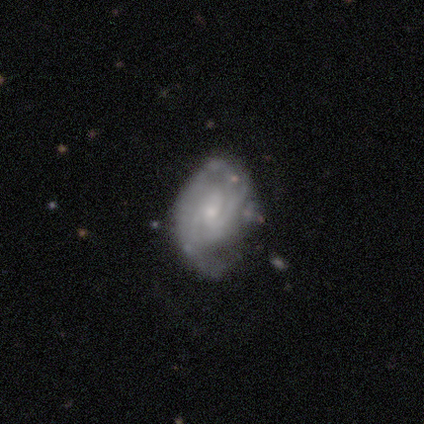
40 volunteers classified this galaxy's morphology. smooth_or_featured: featured or disk (p=0.88) [alt: smooth p=0.10]
disk_edge_on: no (p=1.00)
bar: no (p=0.66) [alt: weak p=0.31]
has_spiral_arms: yes (p=0.91) [alt: no p=0.09]
spiral_winding: tight (p=0.56) [alt: medium p=0.41]
spiral_arm_count: 2 (p=0.41) [alt: can't tell p=0.38]
bulge_size: small (p=0.66) [alt: moderate p=0.26]
merging: none (p=0.31) [tied with: minor disturbance p=0.31]